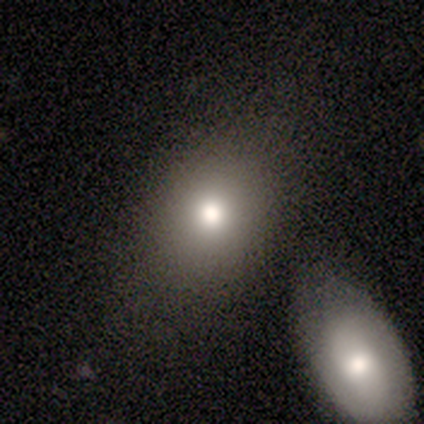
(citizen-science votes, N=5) Smooth or featured: featured or disk — 60% (smooth — 40%)
Edge-on disk: no — 100%
Bar: no — 100%
Spiral arms: no — 100%
Bulge size: moderate — 67% (large — 33%)
Merging: none — 80% (merger — 20%)